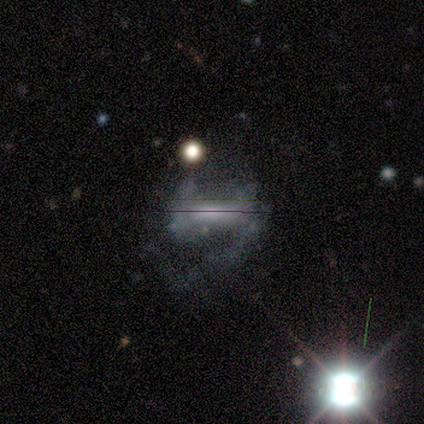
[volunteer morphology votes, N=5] smooth-or-featured: featured or disk: 80% | star or artifact: 20% | smooth: 0%
  disk-edge-on: no: 75% | yes: 25%
    bar: strong: 100% | weak: 0% | no: 0%
    has-spiral-arms: no: 67% | yes: 33%
    bulge-size: small: 67% | none: 33% | dominant: 0% | large: 0% | moderate: 0%
  merging: none: 50% (tied) | major disturbance: 50% (tied) | minor disturbance: 0% | merger: 0%